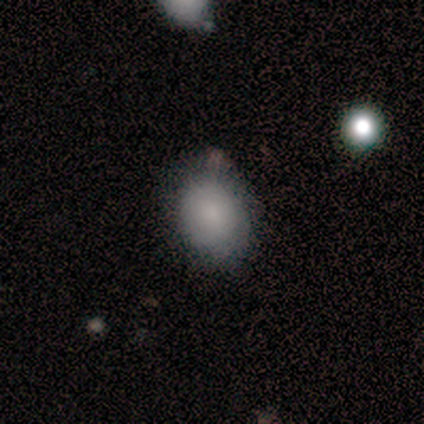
smooth 100%, featured or disk 0%, star or artifact 0%. Down the decision tree: how rounded — round (50%, tied with in between); merging — none (50%, tied with minor disturbance).